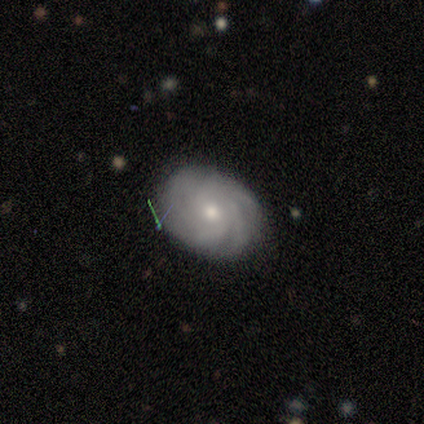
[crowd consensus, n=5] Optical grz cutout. It shows a featured or disk galaxy (60%) with a weak bar (67%), 4 (33%, tied with more than 4 and can't tell) tight (67%) spiral arms (100%) and a moderate central bulge (67%). Merging: none (100%).